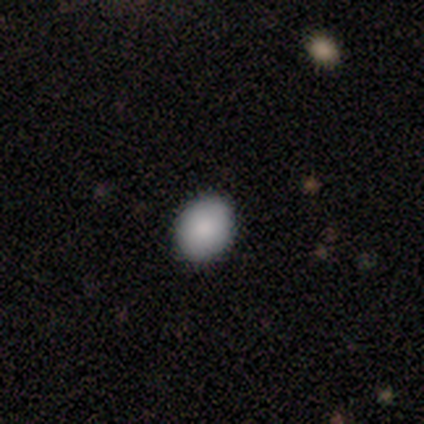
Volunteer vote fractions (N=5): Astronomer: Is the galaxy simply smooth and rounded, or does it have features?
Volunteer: smooth — 100%.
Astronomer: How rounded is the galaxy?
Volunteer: in between — 80%.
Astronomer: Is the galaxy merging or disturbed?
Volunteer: none — 100%.